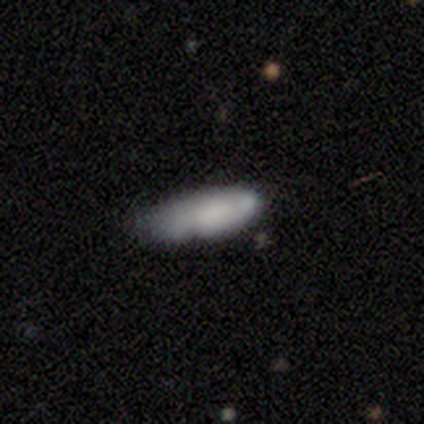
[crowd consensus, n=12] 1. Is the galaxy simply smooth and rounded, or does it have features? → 67% smooth, 25% featured or disk, 8% star or artifact.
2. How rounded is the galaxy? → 50% in between (tied), 50% cigar-shaped (tied), 0% round.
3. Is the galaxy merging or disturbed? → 64% minor disturbance, 36% none, 0% major disturbance, 0% merger.